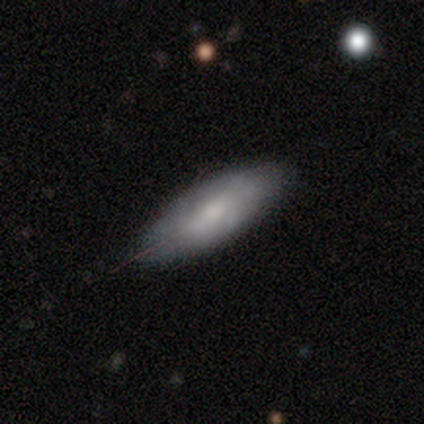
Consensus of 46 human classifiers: Smooth or featured?
  - smooth: 59% *
  - featured or disk: 37%
  - star or artifact: 4%
How rounded?
  - in between: 81% *
  - cigar-shaped: 15%
  - round: 4%
Merging?
  - none: 75% *
  - minor disturbance: 23%
  - major disturbance: 2%
  - merger: 0%